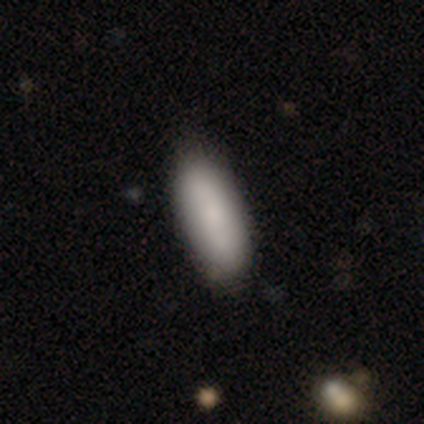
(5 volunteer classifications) This appears to be a smooth galaxy with no disk features (80%) that is in between round and cigar-shaped (75%). Merging: none (60%).